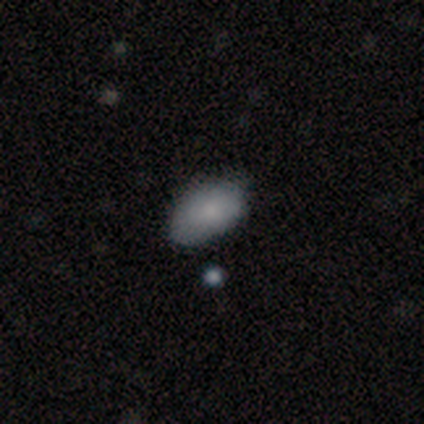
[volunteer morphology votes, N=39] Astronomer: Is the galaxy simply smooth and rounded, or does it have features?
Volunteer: smooth — 82%.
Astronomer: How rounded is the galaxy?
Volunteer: in between — 94%.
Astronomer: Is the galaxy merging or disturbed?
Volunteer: none — 39%.